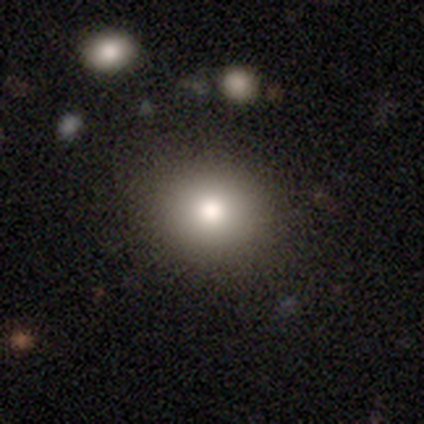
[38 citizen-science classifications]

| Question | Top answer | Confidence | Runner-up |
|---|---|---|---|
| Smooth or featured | smooth | 92% | featured or disk (5%) |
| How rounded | round | 74% | in between (26%) |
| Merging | none | 86% | minor disturbance (11%) |